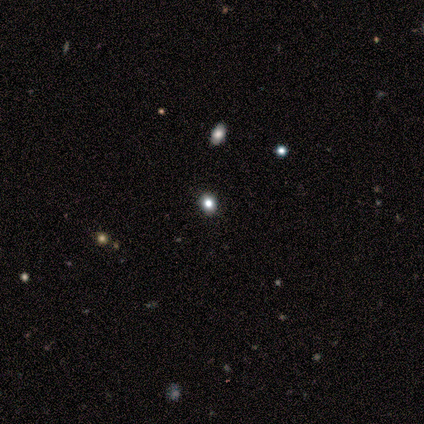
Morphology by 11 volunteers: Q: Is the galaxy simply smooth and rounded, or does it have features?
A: smooth — 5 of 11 (45%, tied with star or artifact).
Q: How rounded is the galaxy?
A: round — 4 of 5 (80%).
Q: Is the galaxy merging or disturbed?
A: none — 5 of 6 (83%).